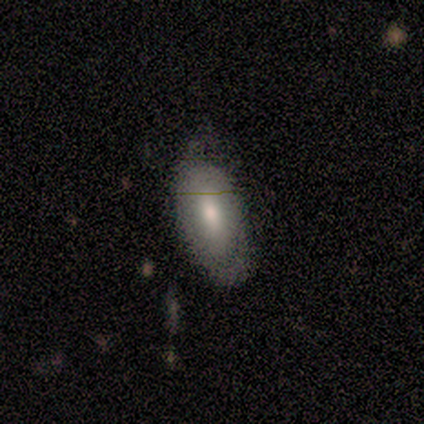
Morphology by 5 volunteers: smooth 80%, featured or disk 20%, star or artifact 0%. Down the decision tree: how rounded — in between (100%); merging — minor disturbance (60%).